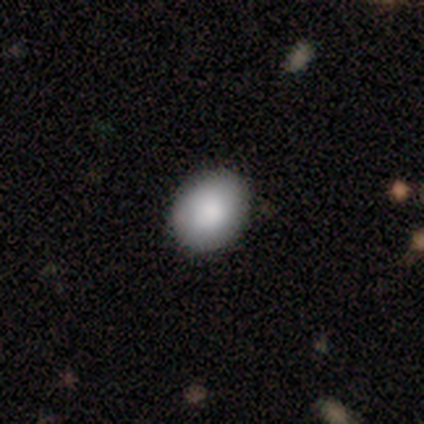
A smooth galaxy with no disk features (75%) that is round (67%).

Vote fractions:
- Smooth or featured? smooth: 75% / featured or disk: 25% / star or artifact: 0%
- How rounded? round: 67% / in between: 33% / cigar-shaped: 0%
- Merging? none: 100% / minor disturbance: 0% / major disturbance: 0% / merger: 0%